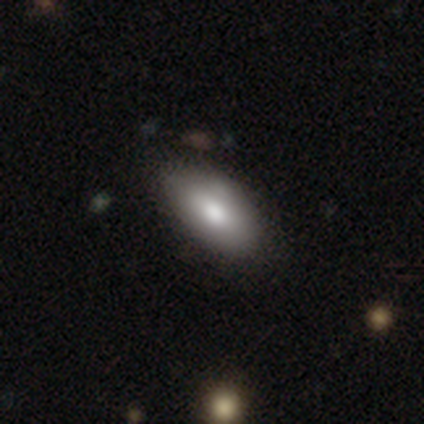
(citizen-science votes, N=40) Smooth or featured: smooth — 82% (featured or disk — 15%)
How rounded: in between — 97% (cigar-shaped — 3%)
Merging: none — 51% (minor disturbance — 5%)